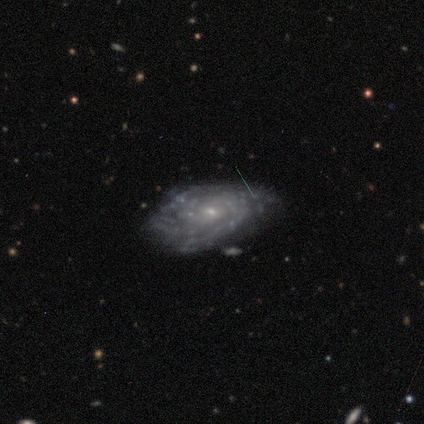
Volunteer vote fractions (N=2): A smooth galaxy with no disk features (50%, tied with featured or disk) that is in between round and cigar-shaped (100%).

Vote fractions:
- Smooth or featured? smooth: 50% (tied) / featured or disk: 50% (tied) / star or artifact: 0%
- How rounded? in between: 100% / round: 0% / cigar-shaped: 0%
- Merging? none: 50% (tied) / minor disturbance: 50% (tied) / major disturbance: 0% / merger: 0%